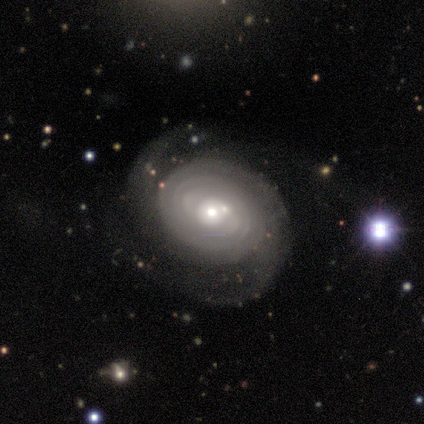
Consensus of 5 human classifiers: smooth_or_featured: featured or disk (p=0.80) [alt: star or artifact p=0.20]
disk_edge_on: no (p=1.00)
bar: no (p=1.00)
has_spiral_arms: yes (p=1.00)
spiral_winding: tight (p=0.50) [alt: medium p=0.25]
spiral_arm_count: 2 (p=1.00)
bulge_size: moderate (p=0.75) [alt: small p=0.25]
merging: none (p=1.00)